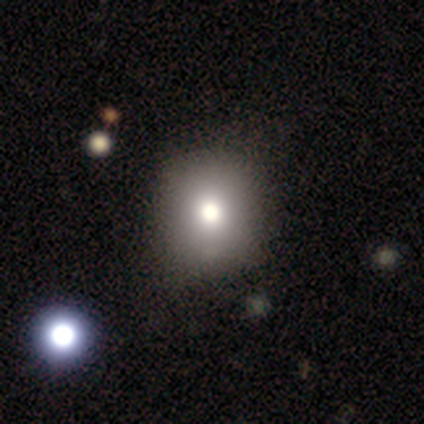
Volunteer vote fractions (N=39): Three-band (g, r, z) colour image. It shows a smooth galaxy with no disk features (87%) that is round (91%). Merging: none (51%).